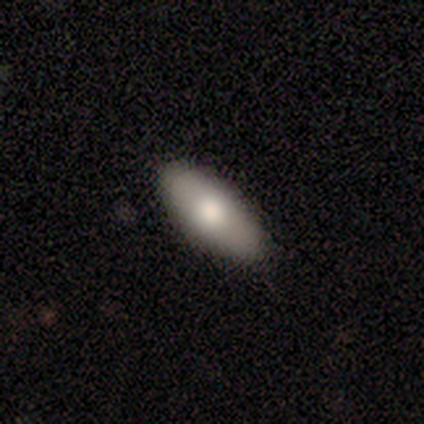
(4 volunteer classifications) smooth 100%, featured or disk 0%, star or artifact 0%. Down the decision tree: how rounded — in between (100%); merging — none (75%).